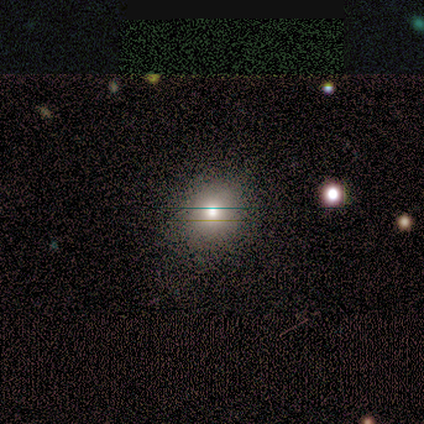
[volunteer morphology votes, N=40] Smooth or featured? smooth (70%)
How rounded? round (86%)
Merging? none (57%)